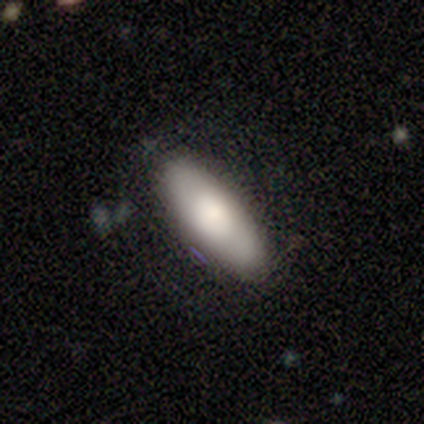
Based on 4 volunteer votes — Morphology: type=smooth (75%); roundness=in between (67%); merging=none (75%).